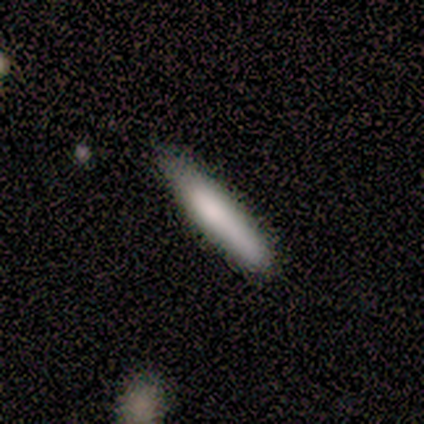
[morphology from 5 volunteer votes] smooth_or_featured: smooth (p=1.00)
how_rounded: cigar-shaped (p=0.80) [alt: in between p=0.20]
merging: none (p=1.00)